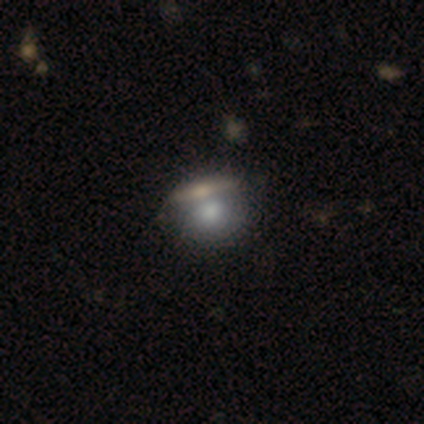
A smooth galaxy with no disk features (77%) that is round (77%). Merging: merger (45%).